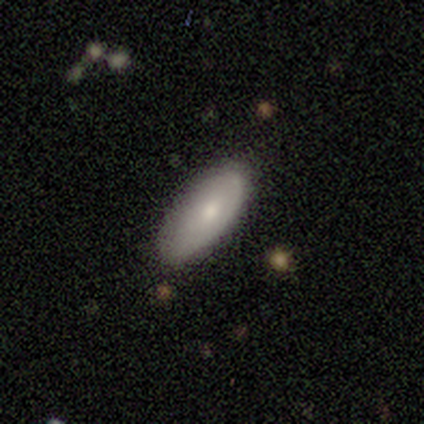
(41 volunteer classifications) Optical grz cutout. It shows a smooth galaxy with no disk features (73%) that is in between round and cigar-shaped (87%). Merging: none (71%).